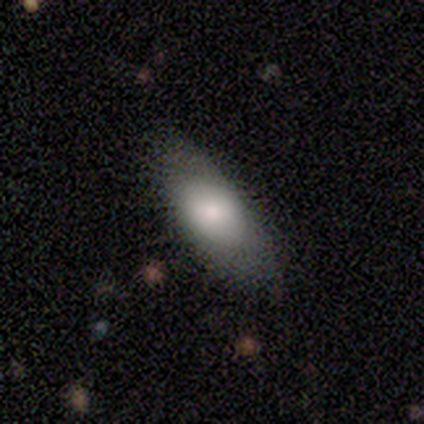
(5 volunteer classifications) Smooth or featured? 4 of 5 (80%) said smooth. How rounded? 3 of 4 (75%) said in between. Merging? 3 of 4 (75%) said none.